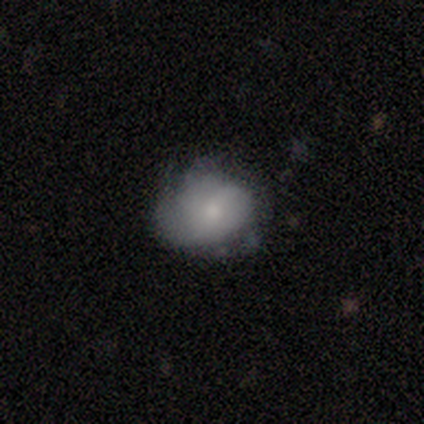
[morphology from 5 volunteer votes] This is marginally a smooth galaxy (40%, tied with featured or disk). How rounded: clearly round (100%). Merging: possibly none (50%, tied with minor disturbance).